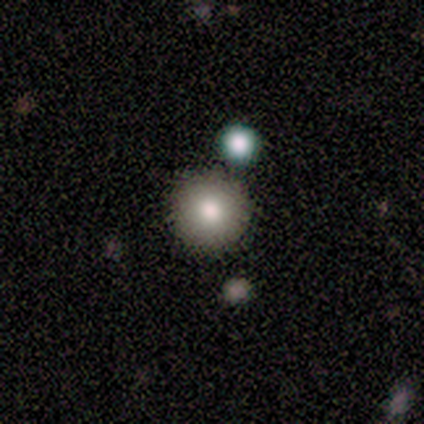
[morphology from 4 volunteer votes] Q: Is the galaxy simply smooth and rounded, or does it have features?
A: smooth — 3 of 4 (75%).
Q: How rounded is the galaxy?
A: in between — 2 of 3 (67%).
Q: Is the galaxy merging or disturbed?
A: none — 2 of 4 (50%, tied with minor disturbance).